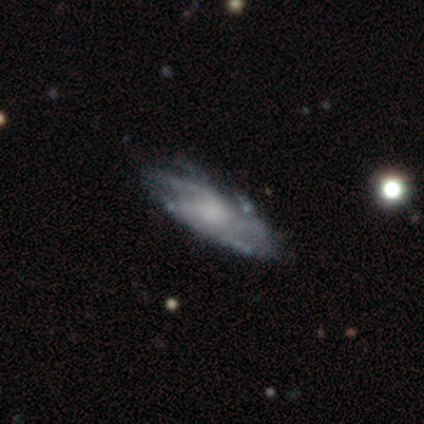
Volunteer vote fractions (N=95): Smooth or featured? featured or disk (78%)
Edge-on disk? no (73%)
Bar? no (74%)
Spiral arms? yes (91%)
Spiral winding? medium (59%)
Spiral arm count? can't tell (45%)
Bulge size? moderate (48%)
Merging? none (66%)